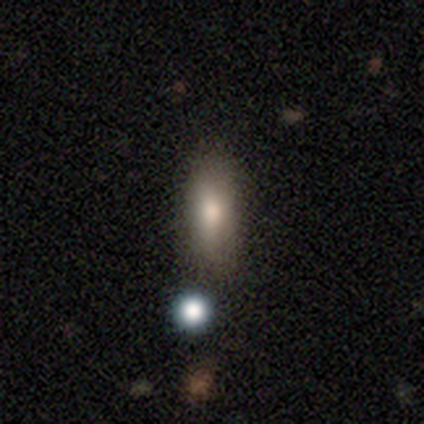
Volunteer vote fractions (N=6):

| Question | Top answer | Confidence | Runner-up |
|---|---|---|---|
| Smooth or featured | smooth | 100% | — |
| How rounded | in between | 83% | round (17%) |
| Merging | none | 67% | minor disturbance (33%) |